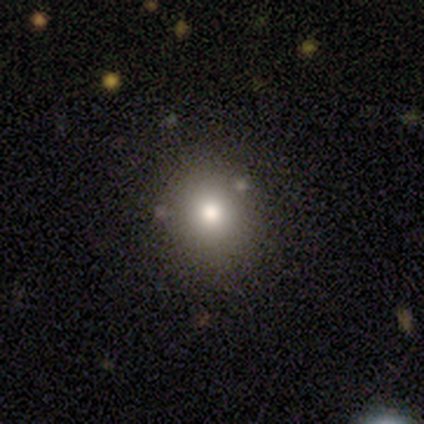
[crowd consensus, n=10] Q: Smooth or featured?
A: featured or disk (50%); runner-up: smooth (30%)
Q: Edge-on disk?
A: no (100%)
Q: Bar?
A: no (100%)
Q: Spiral arms?
A: no (100%)
Q: Bulge size?
A: dominant (40%); tied with: moderate (40%)
Q: Merging?
A: none (100%)